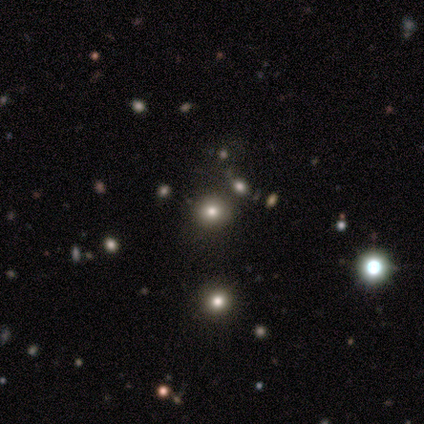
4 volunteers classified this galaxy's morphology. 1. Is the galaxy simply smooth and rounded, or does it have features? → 75% smooth, 25% featured or disk, 0% star or artifact.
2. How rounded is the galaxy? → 100% round, 0% in between, 0% cigar-shaped.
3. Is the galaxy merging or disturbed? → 75% none, 25% minor disturbance, 0% major disturbance, 0% merger.